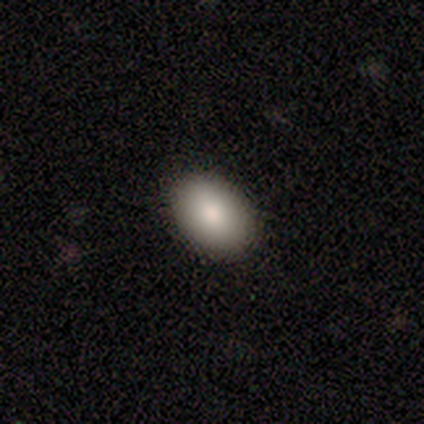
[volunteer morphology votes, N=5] Q: Smooth or featured?
A: smooth (100%)
Q: How rounded?
A: in between (100%)
Q: Merging?
A: none (100%)